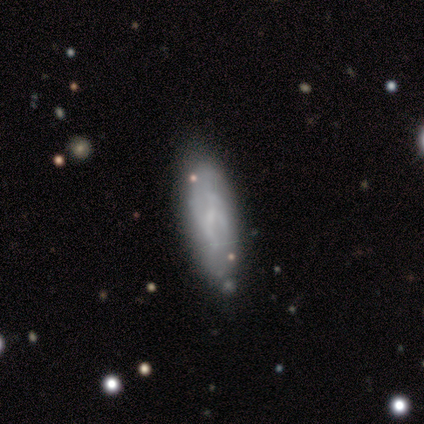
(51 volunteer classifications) This is possibly a smooth galaxy (59%). How rounded: possibly in between (57%). Merging: likely none (68%).